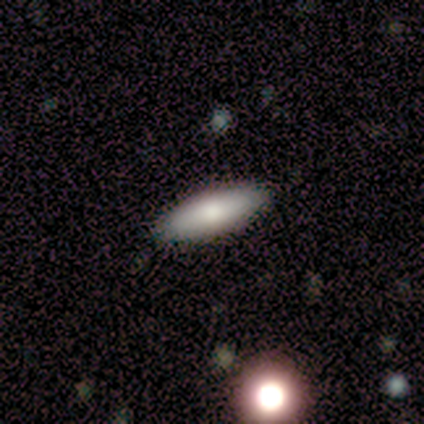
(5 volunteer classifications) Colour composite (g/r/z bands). It shows a smooth galaxy with no disk features (80%) that is in between round and cigar-shaped (50%, tied with cigar-shaped). Merging: none (100%).